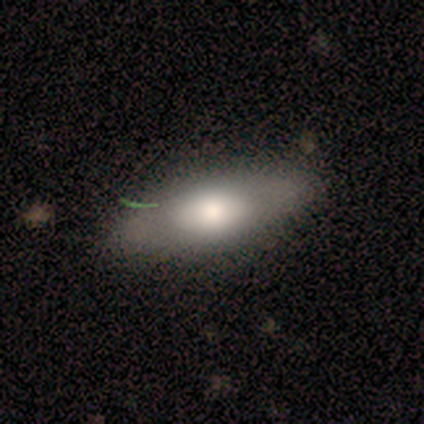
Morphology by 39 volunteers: Q: Smooth or featured?
A: smooth (56%); runner-up: featured or disk (41%)
Q: How rounded?
A: in between (82%); runner-up: cigar-shaped (18%)
Q: Merging?
A: none (68%); runner-up: minor disturbance (26%)